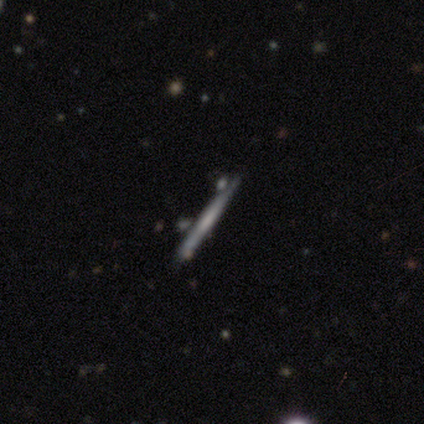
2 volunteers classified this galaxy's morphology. This is clearly a featured or disk galaxy (100%). It is clearly viewed edge-on (100%). Edge-on bulge: clearly none (100%). Merging: clearly none (100%).